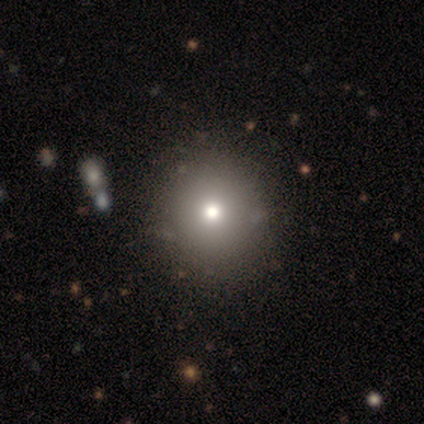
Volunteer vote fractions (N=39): Smooth or featured? smooth (82%)
How rounded? round (97%)
Merging? none (70%)